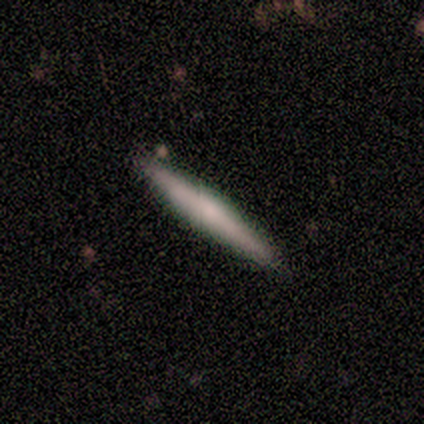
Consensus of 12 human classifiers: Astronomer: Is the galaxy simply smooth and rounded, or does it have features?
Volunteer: featured or disk — 50% (runner-up: smooth, 42%).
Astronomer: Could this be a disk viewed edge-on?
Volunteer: yes — 100%.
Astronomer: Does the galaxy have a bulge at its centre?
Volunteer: none — 67%.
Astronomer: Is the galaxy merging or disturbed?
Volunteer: none — 100%.